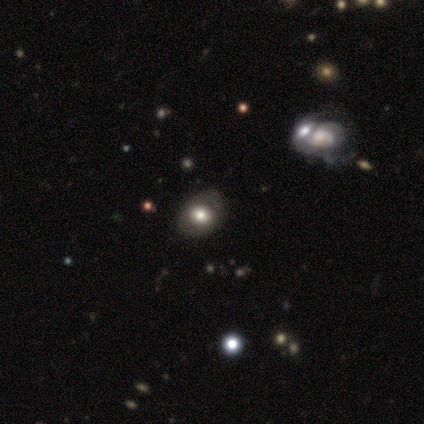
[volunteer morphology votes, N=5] type=featured or disk (80%); edge-on=no (100%); bar=no (75%); spiral arms=no (100%); bulge=moderate (100%); merging=none (75%).